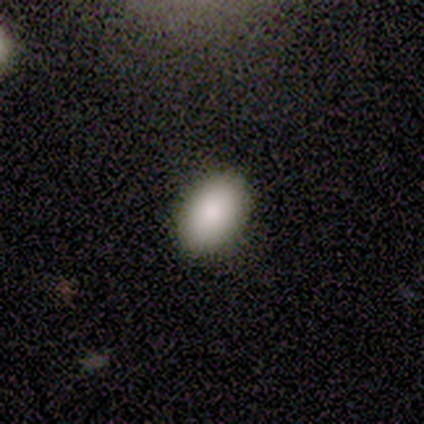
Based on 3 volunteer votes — Smooth or featured?
  - smooth: 67% *
  - star or artifact: 33%
  - featured or disk: 0%
How rounded?
  - in between: 100% *
  - round: 0%
  - cigar-shaped: 0%
Merging?
  - none: 100% *
  - minor disturbance: 0%
  - major disturbance: 0%
  - merger: 0%